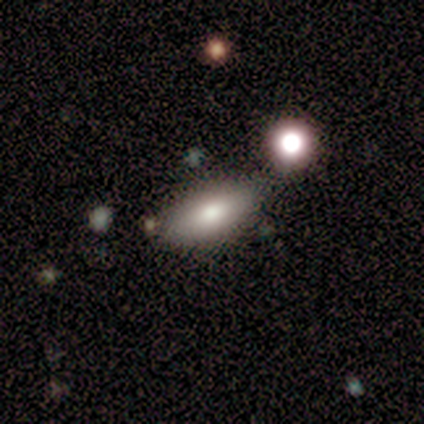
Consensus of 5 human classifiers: A smooth galaxy with no disk features (60%) that is in between round and cigar-shaped (100%).

Vote fractions:
- Smooth or featured? smooth: 60% / star or artifact: 40% / featured or disk: 0%
- How rounded? in between: 100% / round: 0% / cigar-shaped: 0%
- Merging? none: 100% / minor disturbance: 0% / major disturbance: 0% / merger: 0%